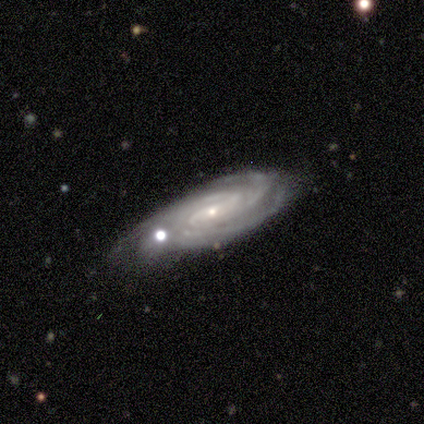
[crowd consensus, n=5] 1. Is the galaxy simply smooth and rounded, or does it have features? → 100% featured or disk, 0% smooth, 0% star or artifact.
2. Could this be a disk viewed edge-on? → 80% no, 20% yes.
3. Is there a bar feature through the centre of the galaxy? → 50% no, 25% strong, 25% weak.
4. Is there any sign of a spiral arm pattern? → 100% yes, 0% no.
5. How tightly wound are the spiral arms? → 100% tight, 0% medium, 0% loose.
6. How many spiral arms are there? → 50% 3 (tied), 50% can't tell (tied), 0% 1, 0% 2, 0% 4, 0% more than 4.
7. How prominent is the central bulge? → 75% small, 25% moderate, 0% dominant, 0% large, 0% none.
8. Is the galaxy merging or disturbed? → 60% none, 40% merger, 0% minor disturbance, 0% major disturbance.